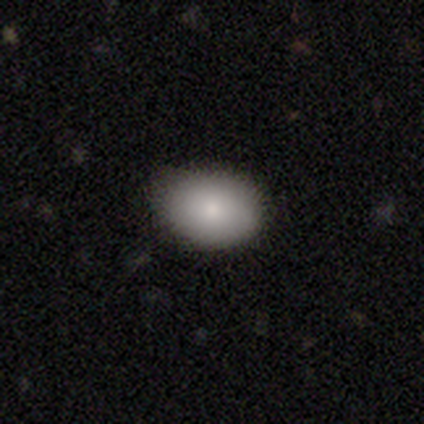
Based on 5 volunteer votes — Morphology: type=smooth (60%); roundness=in between (67%); merging=none (100%).